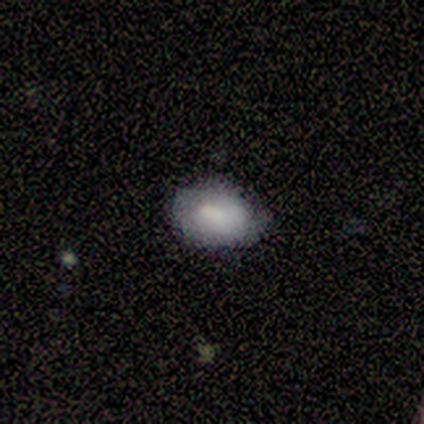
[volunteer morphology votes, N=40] A smooth galaxy with no disk features (75%) that is in between round and cigar-shaped (77%). Merging: none (86%).